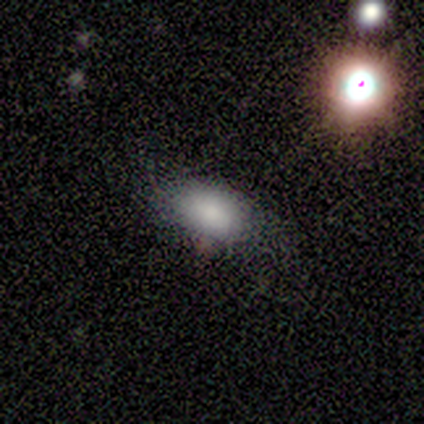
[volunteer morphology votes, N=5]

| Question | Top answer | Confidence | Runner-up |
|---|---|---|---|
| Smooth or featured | smooth | 80% | featured or disk (20%) |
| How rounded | in between | 100% | — |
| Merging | none | 100% | — |